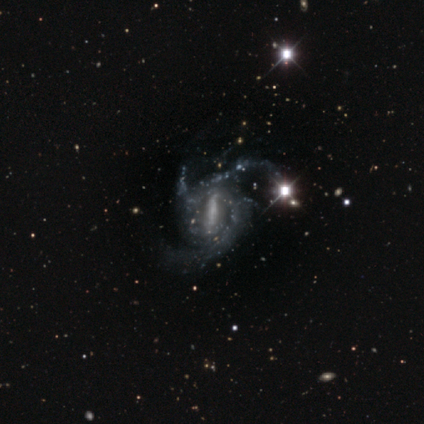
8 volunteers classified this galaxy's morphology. featured or disk 88%, star or artifact 12%, smooth 0%. Down the decision tree: edge-on disk — no (100%); bar — strong (71%); spiral arms — yes (100%); spiral arm count — 3 (71%); spiral winding — medium (71%); bulge size — moderate (43%); merging — minor disturbance (43%, tied with major disturbance).